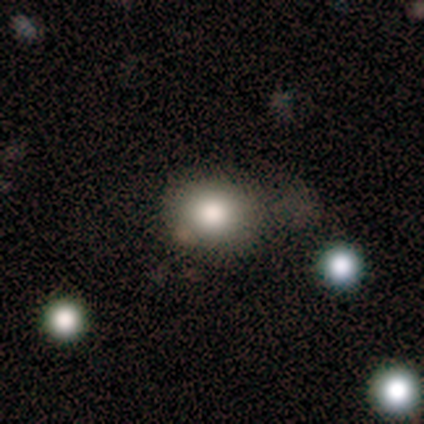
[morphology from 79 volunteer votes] A smooth galaxy with no disk features (84%) that is round (68%). Merging: none (38%).